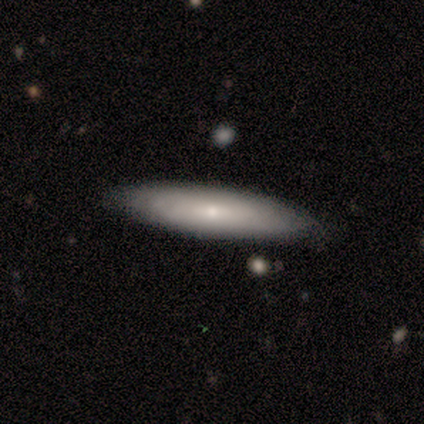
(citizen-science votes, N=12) smooth 50% (tied), featured or disk 50% (tied), star or artifact 0%. Down the decision tree: how rounded — cigar-shaped (83%); merging — none (83%).